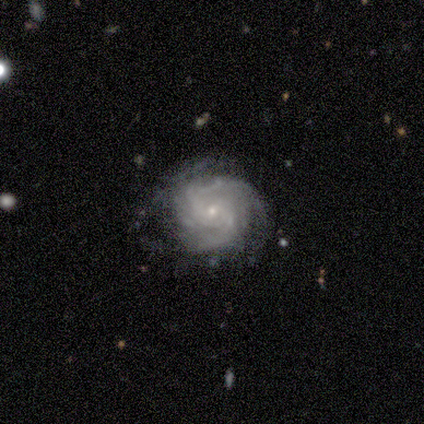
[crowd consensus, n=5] Q: Smooth or featured?
A: featured or disk (100%)
Q: Edge-on disk?
A: no (100%)
Q: Bar?
A: no (80%); runner-up: weak (20%)
Q: Spiral arms?
A: yes (100%)
Q: Spiral winding?
A: tight (100%)
Q: Spiral arm count?
A: can't tell (80%); runner-up: more than 4 (20%)
Q: Bulge size?
A: small (100%)
Q: Merging?
A: none (60%); runner-up: major disturbance (40%)